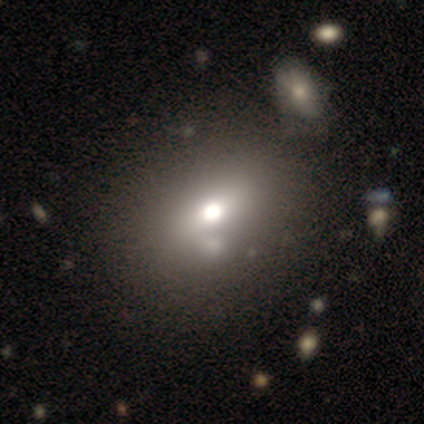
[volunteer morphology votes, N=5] smooth 80%, featured or disk 20%, star or artifact 0%. Down the decision tree: how rounded — in between (75%); merging — none (80%).